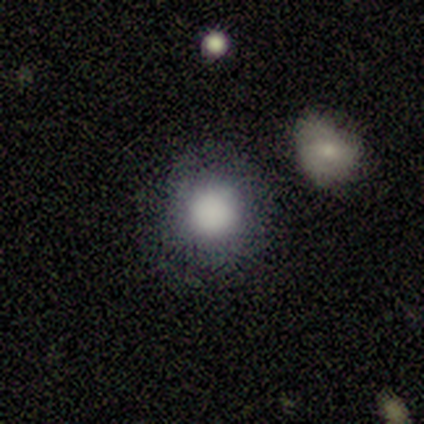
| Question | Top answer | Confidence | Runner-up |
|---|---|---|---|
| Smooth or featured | smooth | 100% | — |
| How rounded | round | 100% | — |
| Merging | none | 100% | — |